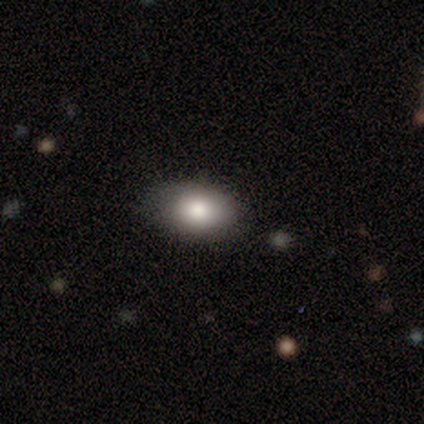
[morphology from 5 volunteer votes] smooth 80%, star or artifact 20%, featured or disk 0%. Down the decision tree: how rounded — in between (100%); merging — none (100%).